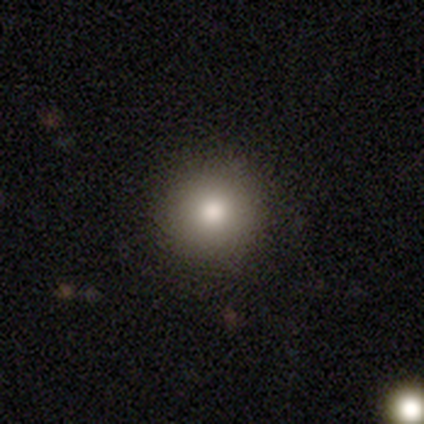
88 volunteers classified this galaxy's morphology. type=smooth (80%); roundness=round (97%); merging=none (88%).